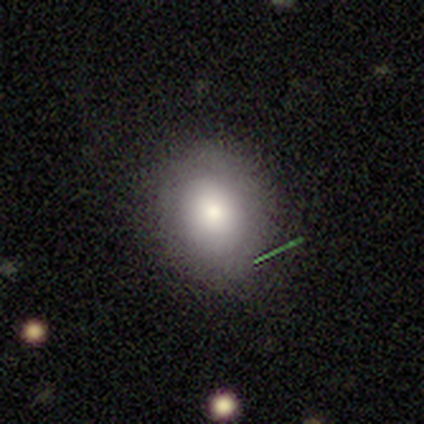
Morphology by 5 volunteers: This appears to be a smooth galaxy with no disk features (60%) that is round (100%). Merging: none (60%).